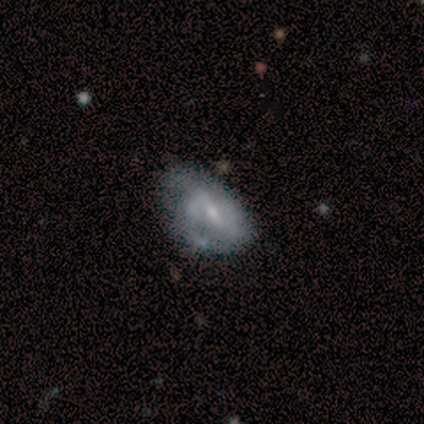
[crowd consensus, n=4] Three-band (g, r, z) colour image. It shows a featured or disk galaxy (75%) with a weak bar (100%), 2 (100%) medium (50%, tied with loose) spiral arms (67%) and a small central bulge (100%). Merging: minor disturbance (50%, tied with major disturbance).